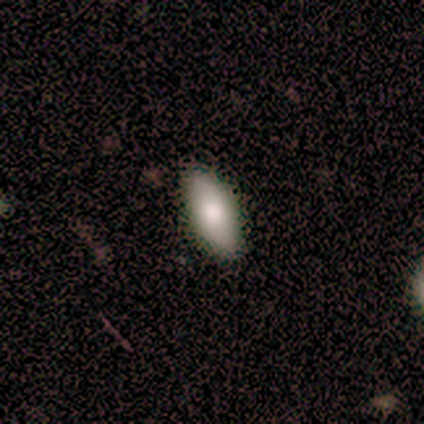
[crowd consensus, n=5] Morphology: type=smooth (100%); roundness=in between (100%); merging=none (80%).